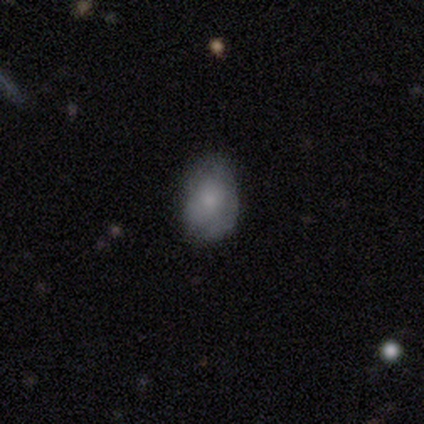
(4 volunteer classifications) Smooth or featured? 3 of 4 (75%) said smooth. How rounded? 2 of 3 (67%) said round. Merging? 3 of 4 (75%) said none.